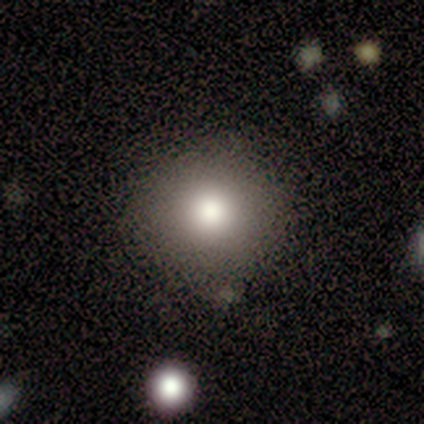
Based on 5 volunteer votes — smooth_or_featured: smooth (p=1.00)
how_rounded: round (p=1.00)
merging: none (p=1.00)